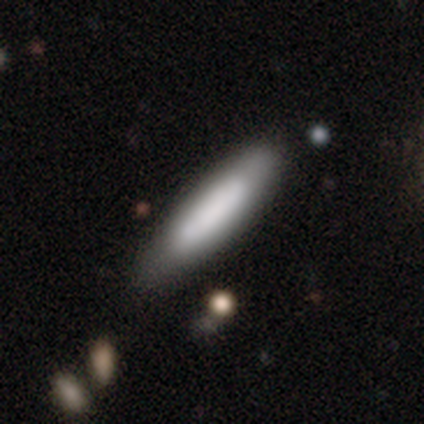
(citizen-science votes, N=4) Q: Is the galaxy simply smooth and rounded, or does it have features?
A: smooth — 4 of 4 (100%).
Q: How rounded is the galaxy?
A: cigar-shaped — 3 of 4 (75%).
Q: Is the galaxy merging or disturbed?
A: none — 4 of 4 (100%).